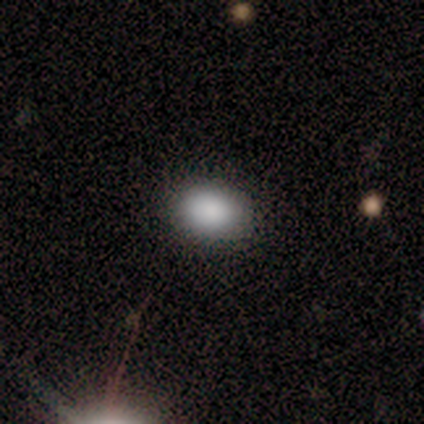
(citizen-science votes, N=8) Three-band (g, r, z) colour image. It shows a smooth galaxy with no disk features (100%) that is in between round and cigar-shaped (100%). Merging: none (75%).